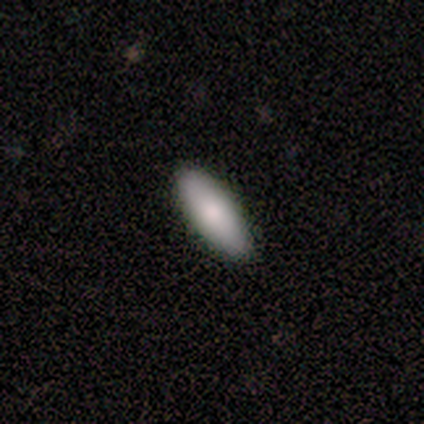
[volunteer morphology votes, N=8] This is likely a smooth galaxy (75%). How rounded: likely in between (67%). Merging: likely none (75%).